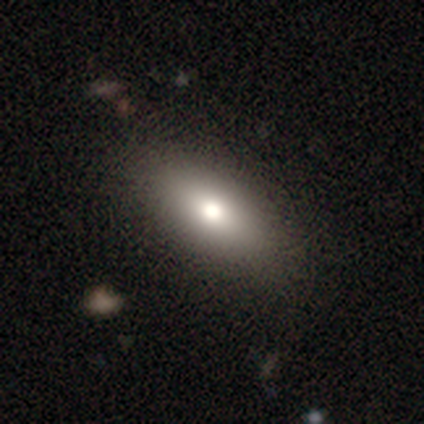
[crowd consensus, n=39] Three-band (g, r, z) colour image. It shows a smooth galaxy with no disk features (72%) that is in between round and cigar-shaped (96%). Merging: none (92%).